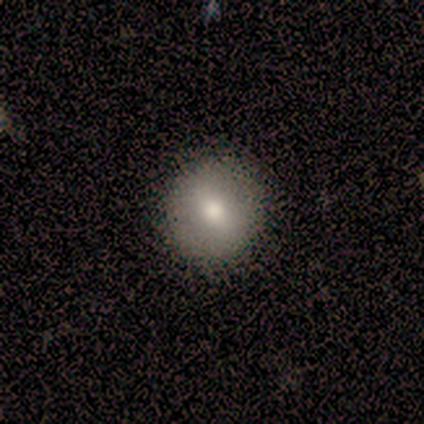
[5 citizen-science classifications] This is likely a smooth galaxy (60%). How rounded: clearly round (100%). Merging: clearly none (100%).